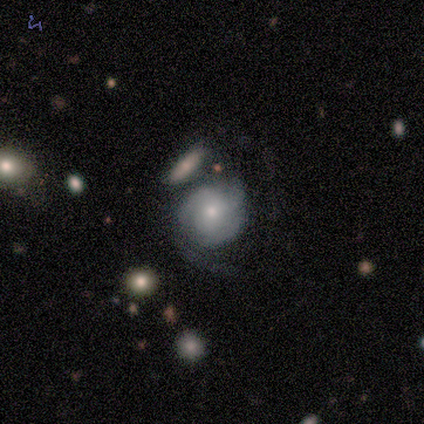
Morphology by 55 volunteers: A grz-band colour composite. It shows a featured or disk galaxy (75%) with no bar (82%), 2 (36%) tight (48%) spiral arms (87%) and a small central bulge (55%). Merging: none (35%).